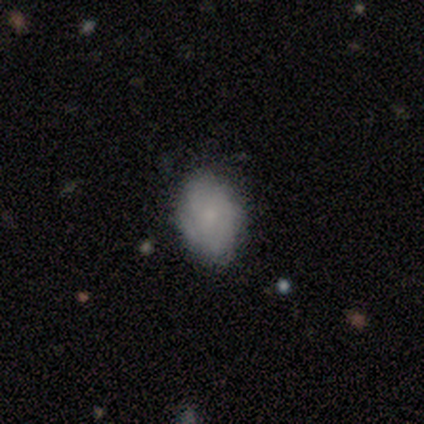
Smooth or featured?
  - smooth: 69% *
  - featured or disk: 23%
  - star or artifact: 8%
How rounded?
  - in between: 96% *
  - round: 4%
  - cigar-shaped: 0%
Merging?
  - none: 69% *
  - minor disturbance: 25%
  - major disturbance: 6%
  - merger: 0%